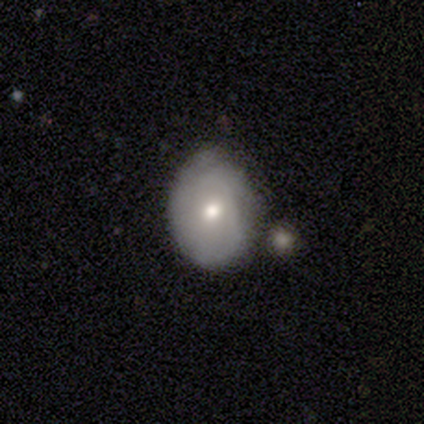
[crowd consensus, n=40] smooth_or_featured: featured or disk (p=0.53) [alt: smooth p=0.42]
disk_edge_on: no (p=1.00)
bar: no (p=0.86) [alt: weak p=0.14]
has_spiral_arms: yes (p=0.62) [alt: no p=0.38]
spiral_winding: tight (p=0.69) [alt: medium p=0.15]
spiral_arm_count: 3 (p=0.31) [tied with: can't tell p=0.31]
bulge_size: moderate (p=0.48) [alt: small p=0.43]
merging: none (p=0.66) [alt: minor disturbance p=0.18]